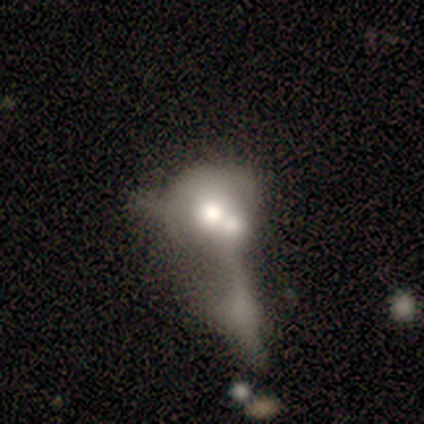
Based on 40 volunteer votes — featured or disk 50%, smooth 45%, star or artifact 5%. Down the decision tree: edge-on disk — no (95%); bar — no (100%); spiral arms — no (95%); bulge size — large (47%); merging — merger (82%).